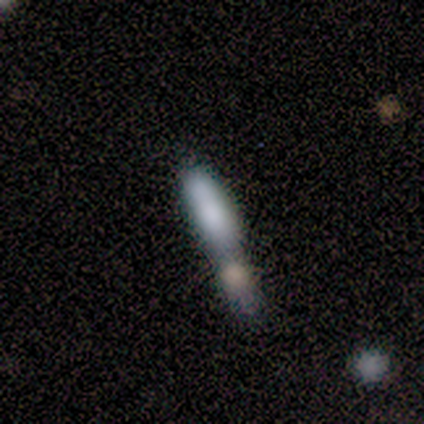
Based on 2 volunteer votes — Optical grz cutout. It shows a smooth galaxy with no disk features (100%) that is cigar-shaped (100%). Merging: minor disturbance (50%, tied with merger).